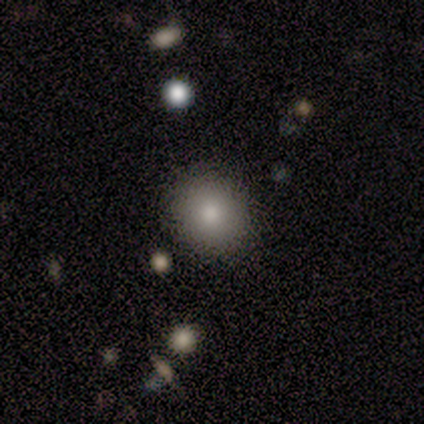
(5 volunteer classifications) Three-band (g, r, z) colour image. It shows a smooth galaxy with no disk features (60%) that is round (100%). Merging: none (100%).